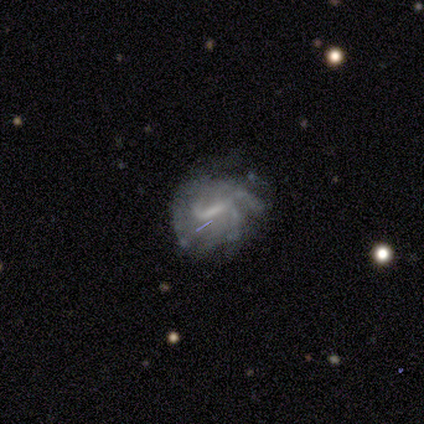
Q: Smooth or featured?
A: featured or disk (88%); runner-up: smooth (12%)
Q: Edge-on disk?
A: no (100%)
Q: Bar?
A: weak (71%); runner-up: strong (29%)
Q: Spiral arms?
A: yes (100%)
Q: Spiral winding?
A: medium (43%); runner-up: tight (29%)
Q: Spiral arm count?
A: can't tell (43%); runner-up: 2 (29%)
Q: Bulge size?
A: none (57%); runner-up: small (43%)
Q: Merging?
A: none (38%); tied with: major disturbance (38%)